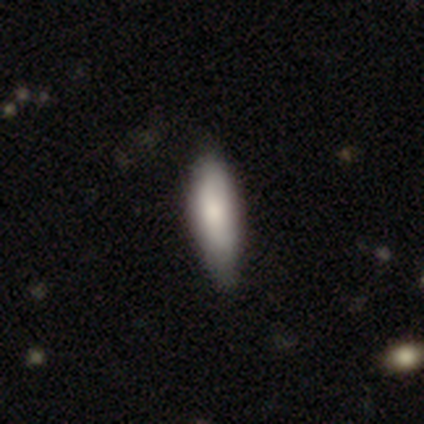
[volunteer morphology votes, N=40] Smooth or featured? 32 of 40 (80%) said smooth. How rounded? 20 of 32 (62%) said in between. Merging? 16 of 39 (41%) said none.